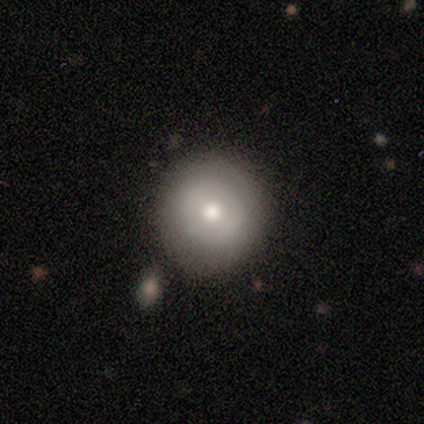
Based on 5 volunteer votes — smooth_or_featured: smooth (p=0.60) [alt: featured or disk p=0.20]
how_rounded: round (p=1.00)
merging: none (p=0.75) [alt: minor disturbance p=0.25]